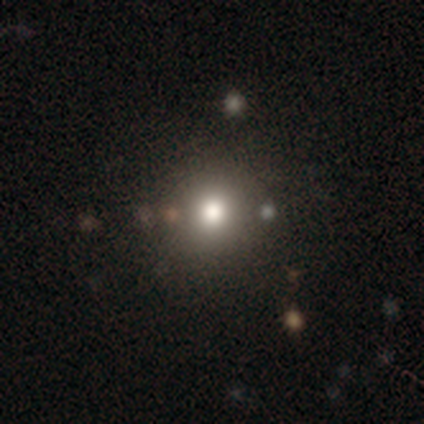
Q: Smooth or featured?
A: smooth (70%); runner-up: star or artifact (16%)
Q: How rounded?
A: round (96%); runner-up: in between (4%)
Q: Merging?
A: none (42%); runner-up: merger (8%)